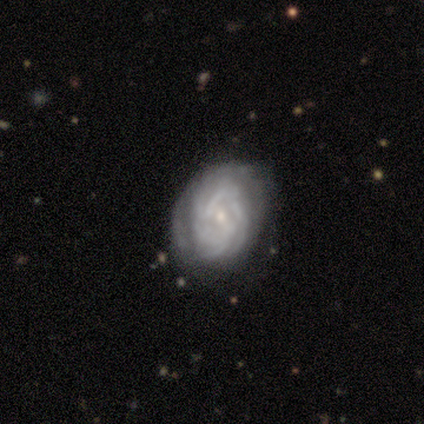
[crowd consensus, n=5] This appears to be a featured or disk galaxy (80%) with a weak bar (75%), tight (67%) spiral arms (75%) and a small central bulge (75%). Merging: none (40%, tied with minor disturbance).